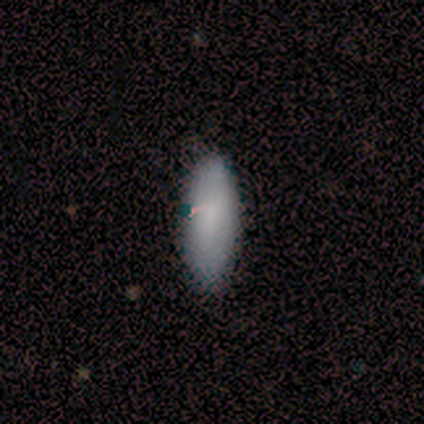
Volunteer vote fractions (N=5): Smooth or featured?
  - smooth: 60% *
  - featured or disk: 40%
  - star or artifact: 0%
How rounded?
  - in between: 67% *
  - cigar-shaped: 33%
  - round: 0%
Merging?
  - none: 100% *
  - minor disturbance: 0%
  - major disturbance: 0%
  - merger: 0%